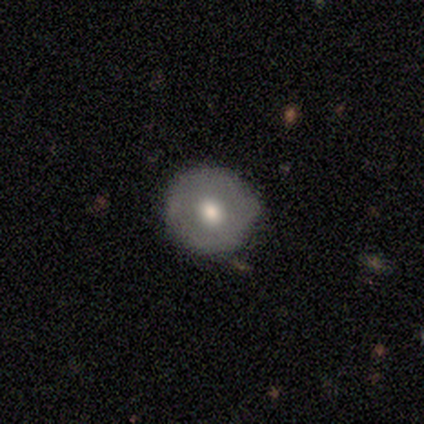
Smooth or featured?
  - smooth: 50% * (tied)
  - featured or disk: 50% * (tied)
  - star or artifact: 0%
How rounded?
  - round: 100% *
  - in between: 0%
  - cigar-shaped: 0%
Merging?
  - none: 50% * (tied)
  - minor disturbance: 50% * (tied)
  - major disturbance: 0%
  - merger: 0%